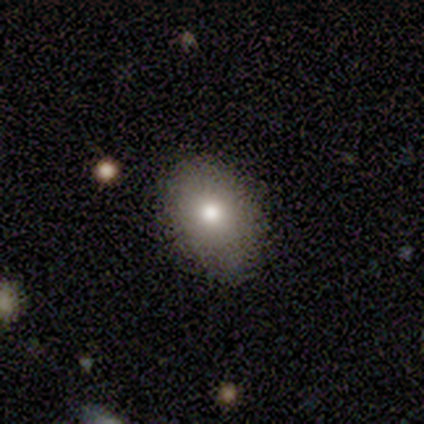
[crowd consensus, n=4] This is possibly a smooth galaxy (50%, tied with featured or disk). How rounded: clearly in between (100%). Merging: clearly none (100%).